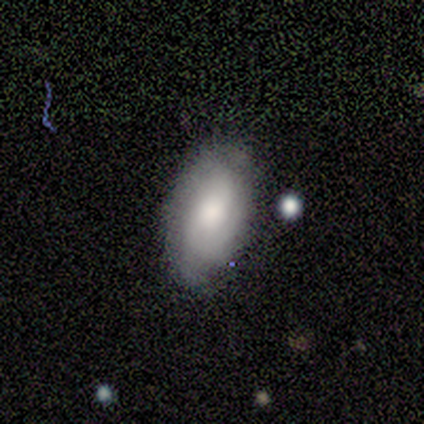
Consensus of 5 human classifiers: smooth-or-featured: smooth: 60% | featured or disk: 40% | star or artifact: 0%
  how-rounded: in between: 100% | round: 0% | cigar-shaped: 0%
  merging: none: 80% | minor disturbance: 20% | major disturbance: 0% | merger: 0%